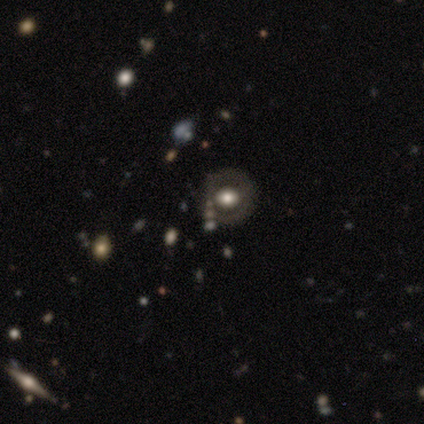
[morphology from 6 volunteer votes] smooth 50% (tied), featured or disk 50% (tied), star or artifact 0%. Down the decision tree: how rounded — round (67%); merging — none (83%).